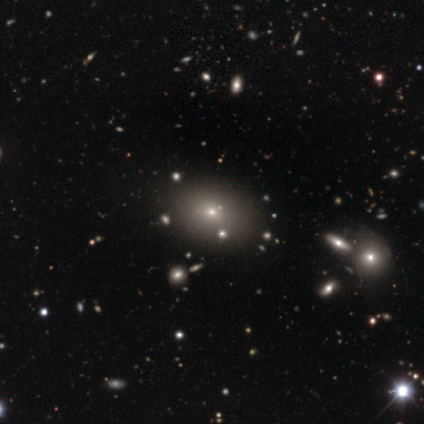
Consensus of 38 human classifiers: A smooth galaxy with no disk features (68%) that is in between round and cigar-shaped (69%). Merging: none (97%).